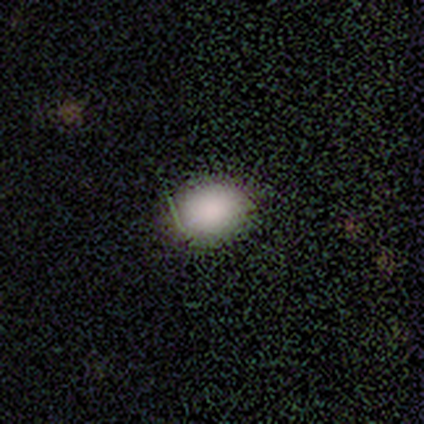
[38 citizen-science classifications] smooth_or_featured: smooth (p=0.82) [alt: star or artifact p=0.13]
how_rounded: round (p=0.52) [alt: in between p=0.48]
merging: none (p=0.52) [alt: minor disturbance p=0.09]